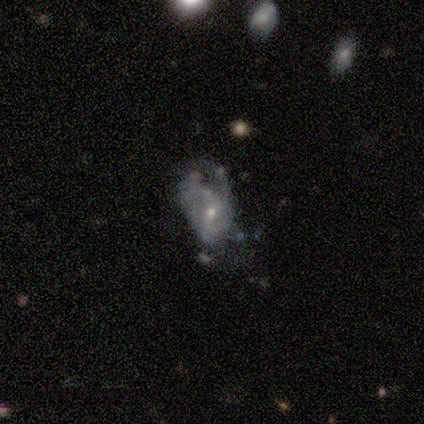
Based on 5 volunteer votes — A featured or disk galaxy (80%) with no bar (75%), tight (50%) spiral arms (100%) and a moderate central bulge (50%, tied with small). Merging: none (40%, tied with major disturbance).